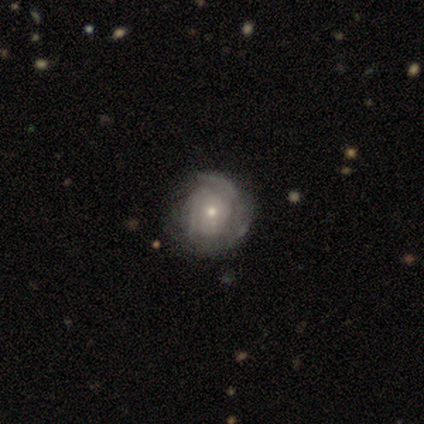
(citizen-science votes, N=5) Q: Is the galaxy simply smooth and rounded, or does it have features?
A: featured or disk — 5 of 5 (100%).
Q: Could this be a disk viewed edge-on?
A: no — 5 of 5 (100%).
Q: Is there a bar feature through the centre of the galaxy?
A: no — 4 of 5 (80%).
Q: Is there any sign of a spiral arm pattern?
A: yes — 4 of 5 (80%).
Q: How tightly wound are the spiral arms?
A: tight — 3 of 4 (75%).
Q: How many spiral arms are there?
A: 3 — 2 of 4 (50%).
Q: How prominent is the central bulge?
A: small — 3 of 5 (60%).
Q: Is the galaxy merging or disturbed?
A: none — 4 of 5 (80%).